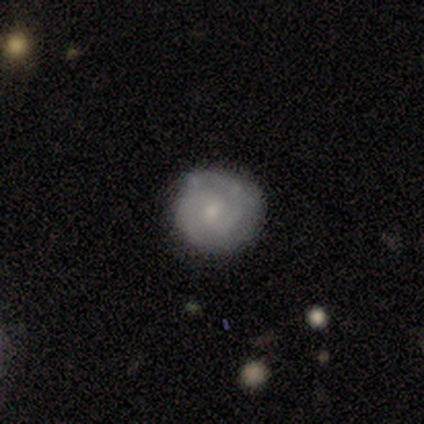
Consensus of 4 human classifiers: smooth-or-featured: featured or disk: 100% | smooth: 0% | star or artifact: 0%
  disk-edge-on: no: 100% | yes: 0%
    bar: no: 75% | weak: 25% | strong: 0%
    has-spiral-arms: yes: 100% | no: 0%
      spiral-winding: tight: 50% (tied) | medium: 50% (tied) | loose: 0%
      spiral-arm-count: 2: 75% | can't tell: 25% | 1: 0% | 3: 0% | 4: 0% | more than 4: 0%
    bulge-size: small: 75% | moderate: 25% | dominant: 0% | large: 0% | none: 0%
  merging: minor disturbance: 75% | none: 25% | major disturbance: 0% | merger: 0%